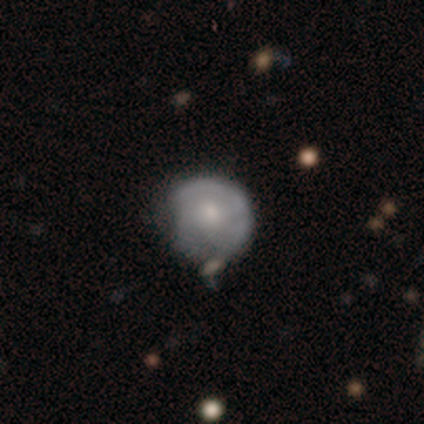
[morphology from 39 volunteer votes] This is likely a featured or disk galaxy (64%). It is clearly not viewed edge-on (100%). Bar: clearly no (88%). Spiral arm pattern: likely no (76%). Central bulge: possibly moderate (48%). Merging: marginally none (31%).